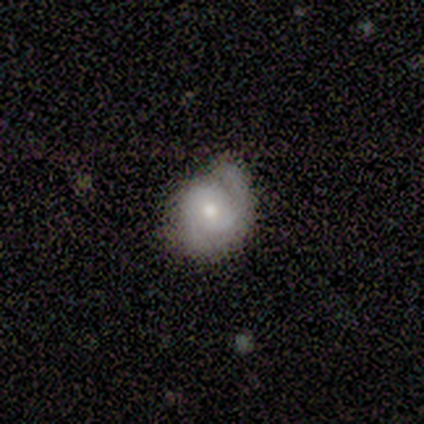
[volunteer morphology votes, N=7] Smooth or featured: featured or disk — 86% (smooth — 14%)
Edge-on disk: no — 100%
Bar: no — 83% (weak — 17%)
Spiral arms: yes — 100%
Spiral winding: tight — 67% (medium — 17%)
Spiral arm count: 2 — 83% (1 — 17%)
Bulge size: moderate — 50% (tied with small — 50%)
Merging: none — 100%